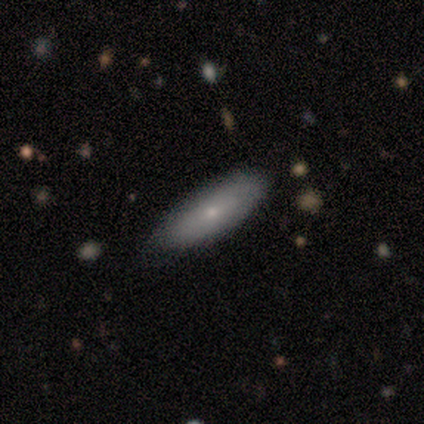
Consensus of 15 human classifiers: A smooth galaxy with no disk features (80%) that is in between round and cigar-shaped (50%, tied with cigar-shaped).

Vote fractions:
- Smooth or featured? smooth: 80% / featured or disk: 20% / star or artifact: 0%
- How rounded? in between: 50% (tied) / cigar-shaped: 50% (tied) / round: 0%
- Merging? none: 80% / minor disturbance: 20% / major disturbance: 0% / merger: 0%